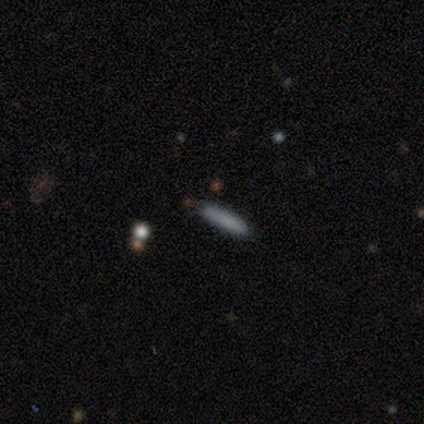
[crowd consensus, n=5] Smooth or featured? smooth (60%)
How rounded? cigar-shaped (100%)
Merging? none (100%)